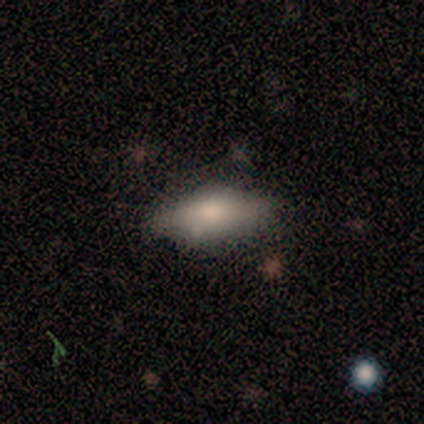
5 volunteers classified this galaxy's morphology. Volunteers were most divided on "how rounded": in between: 67%, cigar-shaped: 33%, round: 0%. More confident: merging — none (100%); smooth or featured — smooth (60%).